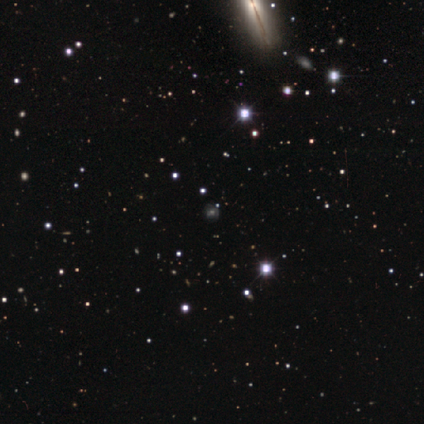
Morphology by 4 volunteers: Smooth or featured: smooth — 75% (star or artifact — 25%)
How rounded: round — 100%
Merging: none — 100%